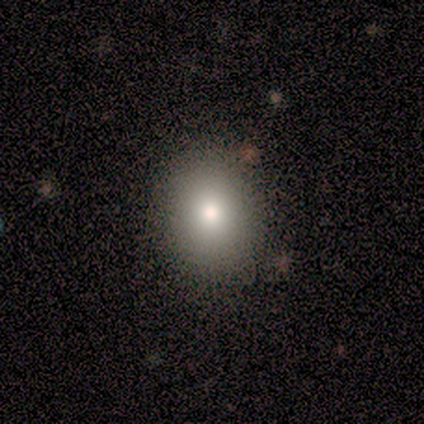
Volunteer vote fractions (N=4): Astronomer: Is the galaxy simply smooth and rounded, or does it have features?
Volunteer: smooth — 100%.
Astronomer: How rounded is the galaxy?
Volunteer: round — 75%.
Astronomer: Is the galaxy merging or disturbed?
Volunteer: none — 50%.